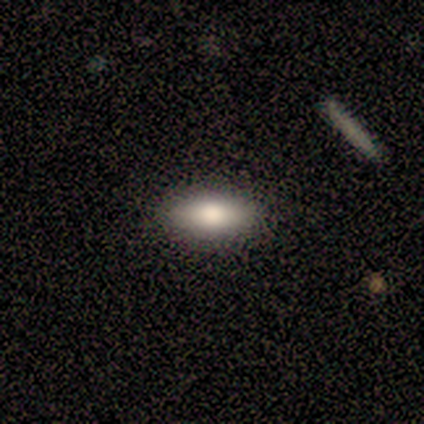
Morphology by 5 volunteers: A smooth galaxy with no disk features (80%) that is in between round and cigar-shaped (100%).

Vote fractions:
- Smooth or featured? smooth: 80% / featured or disk: 20% / star or artifact: 0%
- How rounded? in between: 100% / round: 0% / cigar-shaped: 0%
- Merging? none: 80% / minor disturbance: 20% / major disturbance: 0% / merger: 0%